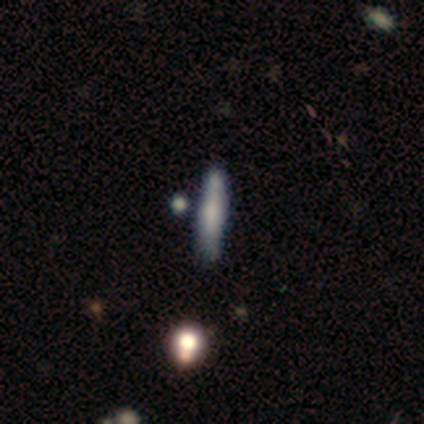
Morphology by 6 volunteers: Smooth or featured? 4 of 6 (67%) said featured or disk. Edge-on disk? 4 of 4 (100%) said yes. Edge-on bulge? 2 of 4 (50%) said boxy. Merging? 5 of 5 (100%) said none.